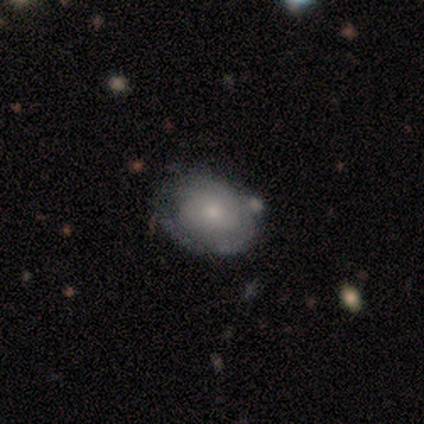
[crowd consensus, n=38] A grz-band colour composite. It shows a featured or disk galaxy (50%) with no bar (100%), tight (89%) spiral arms (50%, tied with no) and a small central bulge (61%). Merging: none (46%).